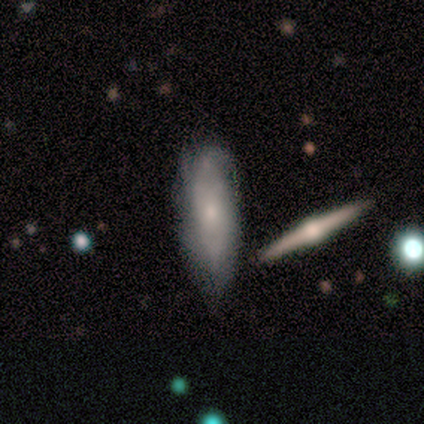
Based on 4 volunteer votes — Overall: smooth (50%, tied with featured or disk). How rounded: in between (100%). Merging: none (50%, tied with minor disturbance).